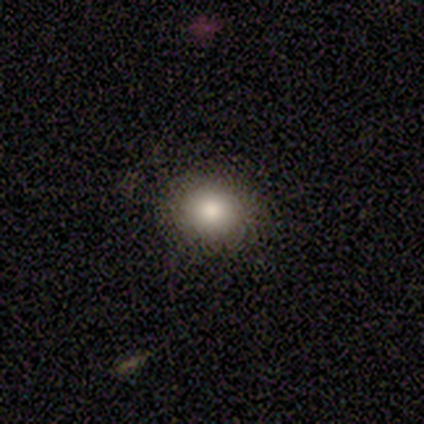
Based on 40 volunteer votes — Overall: smooth (78%). How rounded: round (77%). Merging: none (61%).